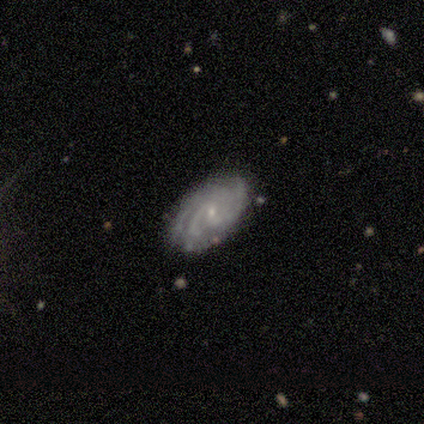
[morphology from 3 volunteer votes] Q: Smooth or featured?
A: featured or disk (100%)
Q: Edge-on disk?
A: no (100%)
Q: Bar?
A: no (100%)
Q: Spiral arms?
A: yes (100%)
Q: Spiral winding?
A: tight (67%); runner-up: loose (33%)
Q: Spiral arm count?
A: 2 (33%); tied with: 3 (33%); can't tell (33%)
Q: Bulge size?
A: small (67%); runner-up: none (33%)
Q: Merging?
A: none (100%)